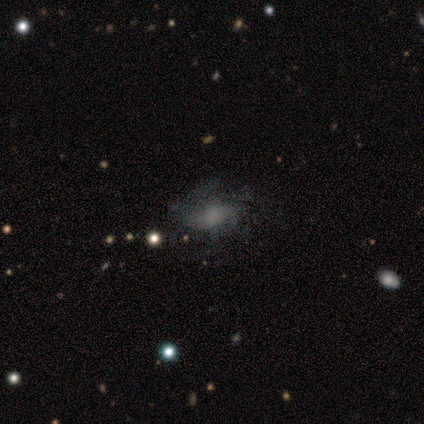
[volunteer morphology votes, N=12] A featured or disk galaxy (75%) with no bar (56%), medium (71%) spiral arms (78%) and no central bulge (56%).

Vote fractions:
- Smooth or featured? featured or disk: 75% / star or artifact: 17% / smooth: 8%
- Edge-on disk? no: 100% / yes: 0%
- Bar? no: 56% / weak: 33% / strong: 11%
- Spiral arms? yes: 78% / no: 22%
- Spiral winding? medium: 71% / tight: 14% / loose: 14%
- Spiral arm count? can't tell: 43% / 2: 29% / 3: 14% / 4: 14% / 1: 0% / more than 4: 0%
- Bulge size? none: 56% / moderate: 22% / small: 22% / dominant: 0% / large: 0%
- Merging? none: 80% / major disturbance: 20% / minor disturbance: 0% / merger: 0%